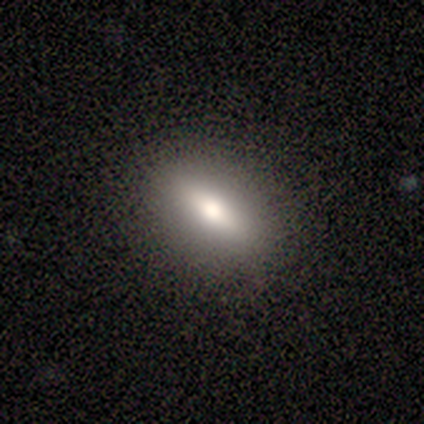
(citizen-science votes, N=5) Morphology: type=smooth (60%); roundness=in between (100%); merging=none (100%).